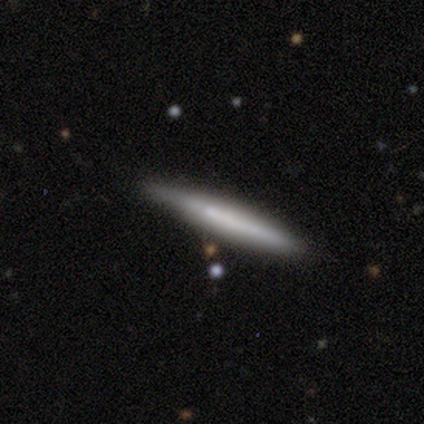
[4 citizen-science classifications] This appears to be a featured or disk galaxy (75%) viewed edge-on (100%) with no central bulge (100%). Merging: none (50%, tied with minor disturbance).